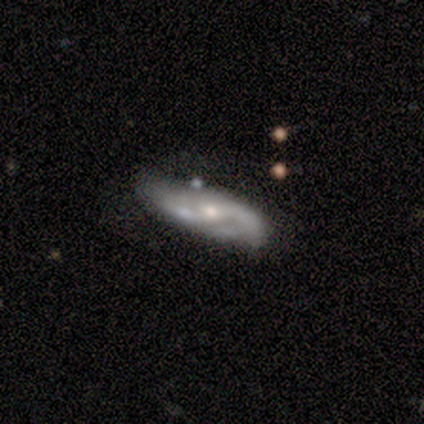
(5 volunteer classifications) A featured or disk galaxy (100%) with a weak bar (100%), 2 (100%) loose (75%) spiral arms (100%) and a small central bulge (100%).

Vote fractions:
- Smooth or featured? featured or disk: 100% / smooth: 0% / star or artifact: 0%
- Edge-on disk? no: 80% / yes: 20%
- Bar? weak: 100% / strong: 0% / no: 0%
- Spiral arms? yes: 100% / no: 0%
- Spiral winding? loose: 75% / medium: 25% / tight: 0%
- Spiral arm count? 2: 100% / 1: 0% / 3: 0% / 4: 0% / more than 4: 0% / can't tell: 0%
- Bulge size? small: 100% / dominant: 0% / large: 0% / moderate: 0% / none: 0%
- Merging? none: 80% / merger: 20% / minor disturbance: 0% / major disturbance: 0%